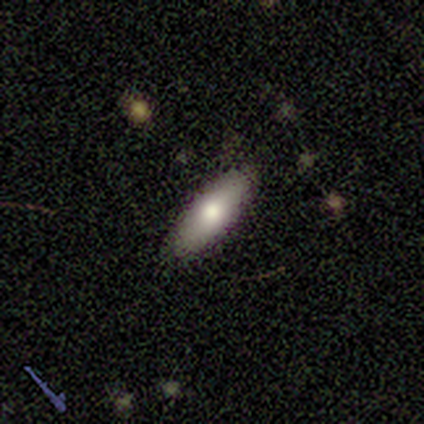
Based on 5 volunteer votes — This is clearly a smooth galaxy (80%). How rounded: clearly in between (100%). Merging: clearly none (100%).